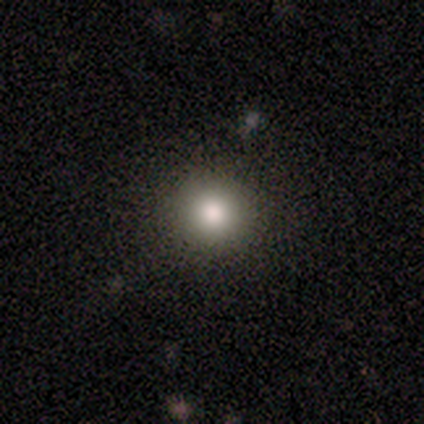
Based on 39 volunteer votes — Morphology: type=smooth (85%); roundness=round (97%); merging=none (86%).